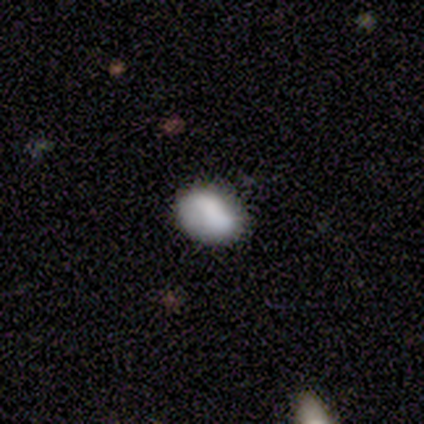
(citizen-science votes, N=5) smooth 100%, featured or disk 0%, star or artifact 0%. Down the decision tree: how rounded — in between (100%); merging — minor disturbance (60%).